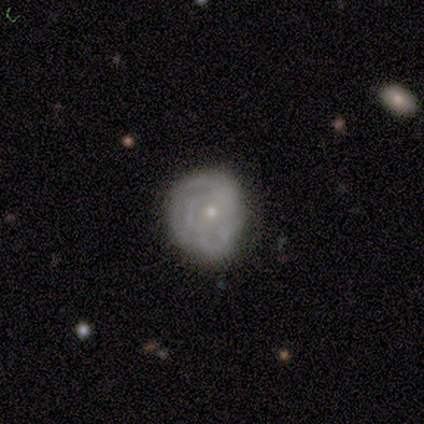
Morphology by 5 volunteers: smooth_or_featured: featured or disk (p=1.00)
disk_edge_on: no (p=1.00)
bar: no (p=0.80) [alt: weak p=0.20]
has_spiral_arms: yes (p=0.60) [alt: no p=0.40]
spiral_winding: tight (p=1.00)
spiral_arm_count: can't tell (p=1.00)
bulge_size: small (p=0.80) [alt: moderate p=0.20]
merging: none (p=1.00)